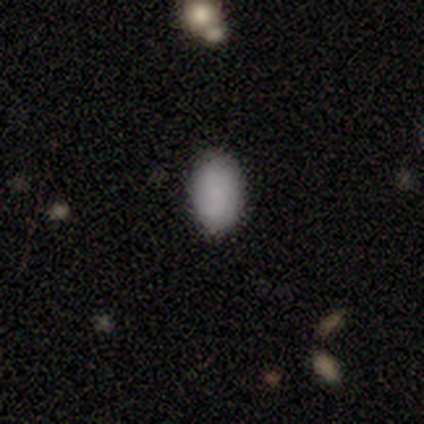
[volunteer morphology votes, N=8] smooth_or_featured: smooth (p=1.00)
how_rounded: in between (p=0.88) [alt: round p=0.12]
merging: none (p=0.75) [alt: minor disturbance p=0.25]